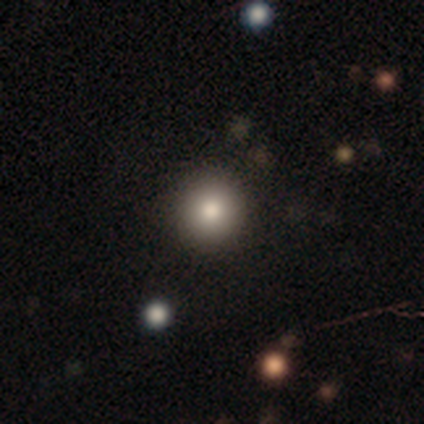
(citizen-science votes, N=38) Morphology: type=smooth (89%); roundness=round (97%); merging=none (92%).